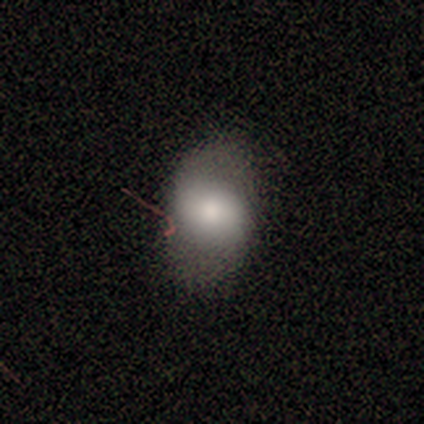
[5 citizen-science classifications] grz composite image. It shows a smooth galaxy with no disk features (40%, tied with star or artifact) that is in between round and cigar-shaped (100%). Merging: none (67%).